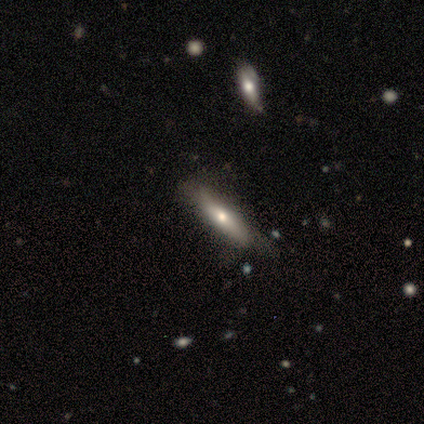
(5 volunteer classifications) This is likely a featured or disk galaxy (60%). It is likely not viewed edge-on (67%). Bar: possibly weak (50%, tied with no). Spiral arm pattern: clearly no (100%). Central bulge: clearly small (100%). Merging: marginally none (40%, tied with minor disturbance).